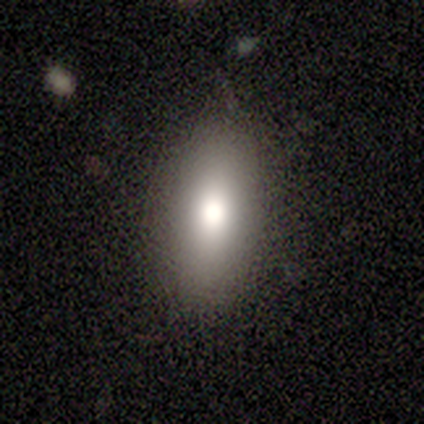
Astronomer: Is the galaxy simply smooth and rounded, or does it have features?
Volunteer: smooth — 67%.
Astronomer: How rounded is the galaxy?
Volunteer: in between — 100%.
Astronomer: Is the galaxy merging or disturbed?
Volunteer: none — 67%.